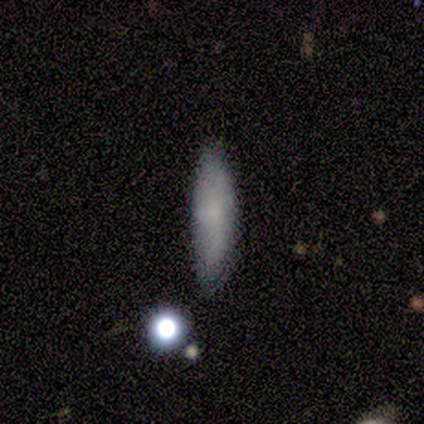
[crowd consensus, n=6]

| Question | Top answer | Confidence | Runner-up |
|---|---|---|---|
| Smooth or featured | smooth | 67% | featured or disk (17%) |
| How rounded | cigar-shaped | 75% | round (25%) |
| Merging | minor disturbance | 60% | none (20%) |